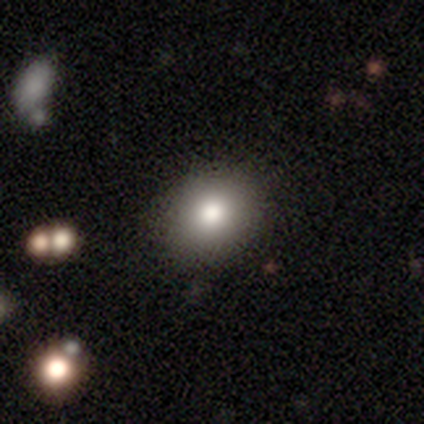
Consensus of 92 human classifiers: A smooth galaxy with no disk features (76%) that is round (64%). Merging: none (81%).